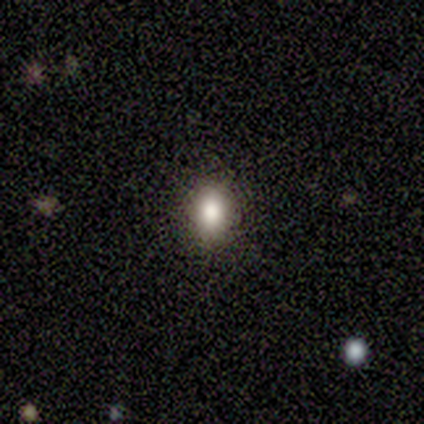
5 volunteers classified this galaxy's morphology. Smooth or featured: smooth — 80% (featured or disk — 20%)
How rounded: in between — 75% (cigar-shaped — 25%)
Merging: none — 80% (minor disturbance — 20%)